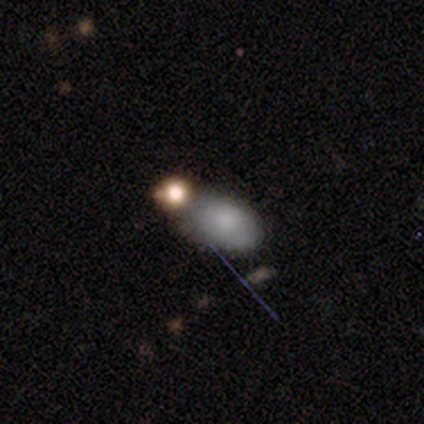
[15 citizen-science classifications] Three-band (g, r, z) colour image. It shows a smooth galaxy with no disk features (93%) that is in between round and cigar-shaped (100%). Merging: none (36%, tied with minor disturbance).